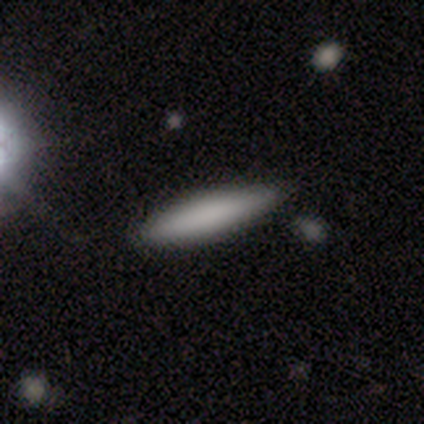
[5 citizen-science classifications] Smooth or featured? 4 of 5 (80%) said smooth. How rounded? 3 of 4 (75%) said cigar-shaped. Merging? 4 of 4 (100%) said none.